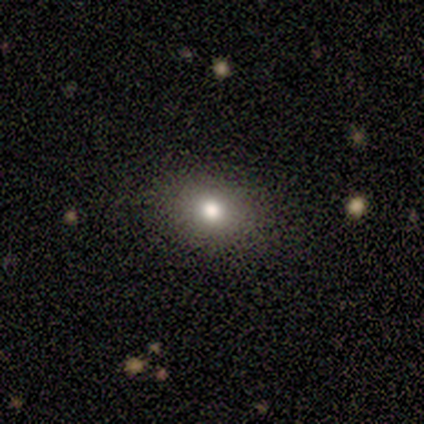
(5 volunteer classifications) Q: Smooth or featured?
A: smooth (80%); runner-up: star or artifact (20%)
Q: How rounded?
A: in between (100%)
Q: Merging?
A: none (100%)